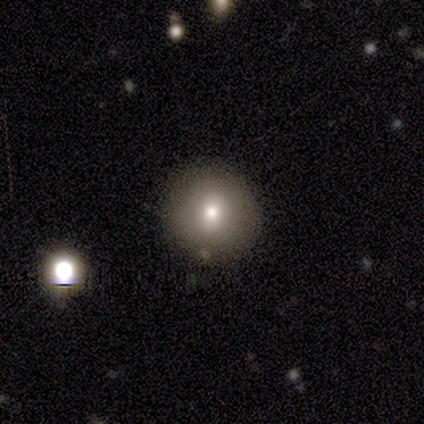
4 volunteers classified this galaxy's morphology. type=smooth (75%); roundness=round (67%); merging=none (67%).